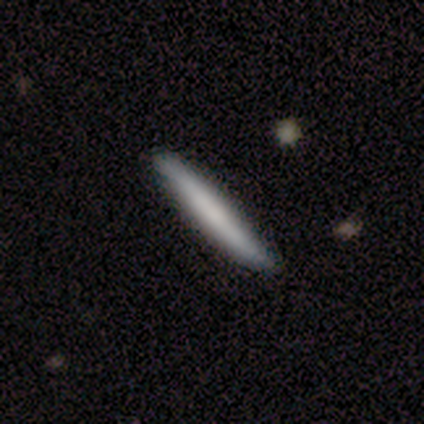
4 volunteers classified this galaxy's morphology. smooth_or_featured: smooth (p=0.75) [alt: featured or disk p=0.25]
how_rounded: cigar-shaped (p=1.00)
merging: none (p=0.75) [alt: minor disturbance p=0.25]